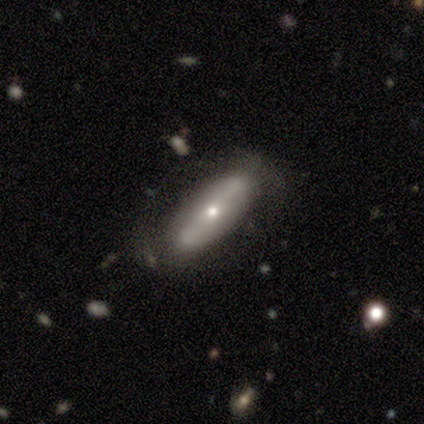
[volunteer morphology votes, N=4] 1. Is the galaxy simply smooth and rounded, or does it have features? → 50% smooth (tied), 50% featured or disk (tied), 0% star or artifact.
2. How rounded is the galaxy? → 50% in between (tied), 50% cigar-shaped (tied), 0% round.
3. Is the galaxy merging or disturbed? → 100% none, 0% minor disturbance, 0% major disturbance, 0% merger.